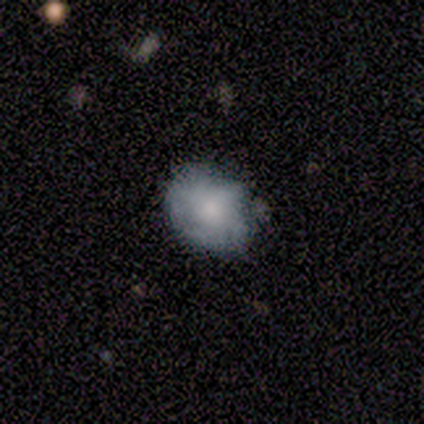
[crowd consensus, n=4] smooth-or-featured: smooth: 50% (tied) | featured or disk: 50% (tied) | star or artifact: 0%
  how-rounded: in between: 100% | round: 0% | cigar-shaped: 0%
  merging: none: 75% | merger: 25% | minor disturbance: 0% | major disturbance: 0%